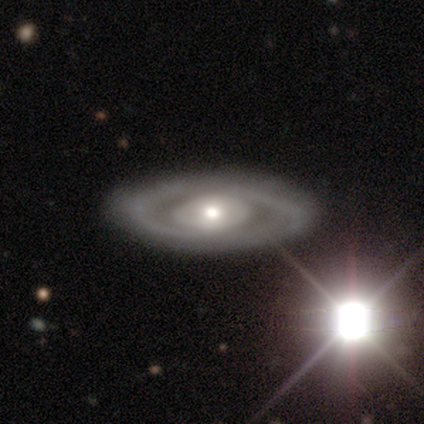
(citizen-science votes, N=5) This appears to be a featured or disk galaxy (60%) with no bar (100%), 2 (100%) tight (100%) spiral arms (67%) and a small central bulge (67%). Merging: none (80%).